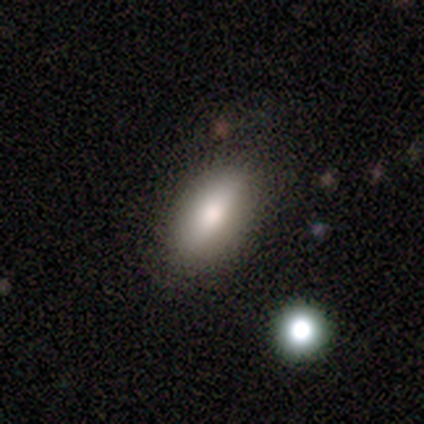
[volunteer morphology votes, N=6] smooth_or_featured: smooth (p=0.67) [alt: featured or disk p=0.17]
how_rounded: in between (p=1.00)
merging: none (p=0.80) [alt: minor disturbance p=0.20]